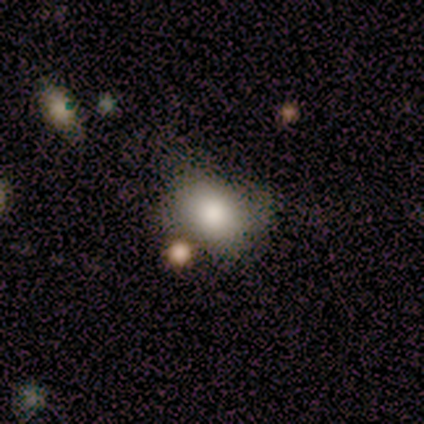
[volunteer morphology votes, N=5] smooth-or-featured: smooth: 60% | featured or disk: 20% | star or artifact: 20%
  how-rounded: in between: 100% | round: 0% | cigar-shaped: 0%
  merging: none: 50% (tied) | major disturbance: 50% (tied) | minor disturbance: 0% | merger: 0%